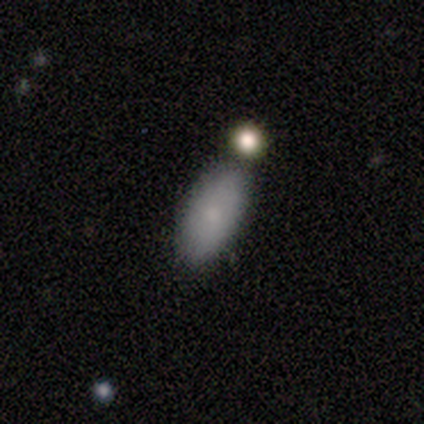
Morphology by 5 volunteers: Q: Smooth or featured?
A: smooth (60%); runner-up: featured or disk (20%)
Q: How rounded?
A: in between (100%)
Q: Merging?
A: none (100%)